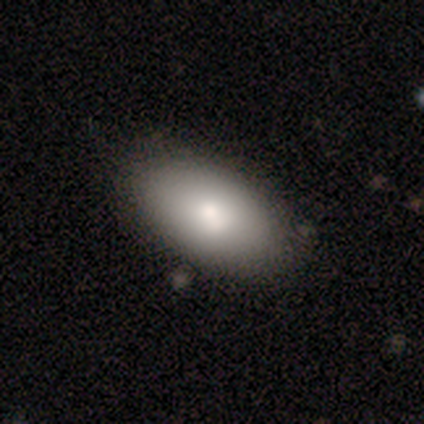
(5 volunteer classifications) smooth_or_featured: smooth (p=0.80) [alt: featured or disk p=0.20]
how_rounded: in between (p=1.00)
merging: none (p=1.00)